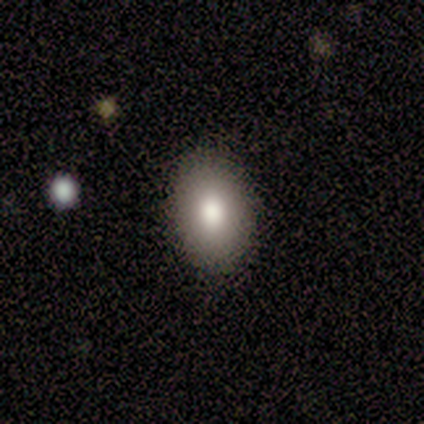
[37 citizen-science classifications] A smooth galaxy with no disk features (81%) that is in between round and cigar-shaped (87%). Merging: none (94%).